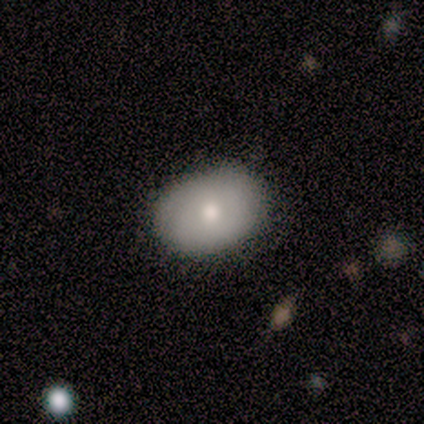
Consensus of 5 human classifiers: Morphology: type=smooth (100%); roundness=in between (80%); merging=none (100%).